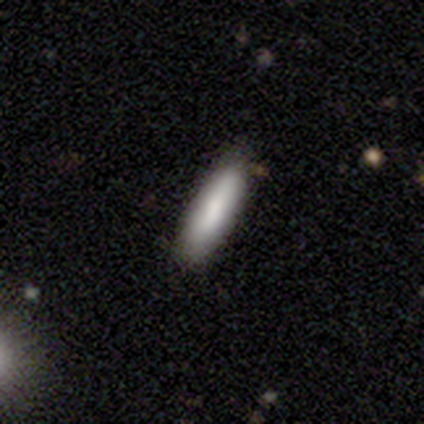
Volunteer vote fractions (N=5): Morphology: type=smooth (80%); roundness=in between (50%, tied with cigar-shaped); merging=none (60%).